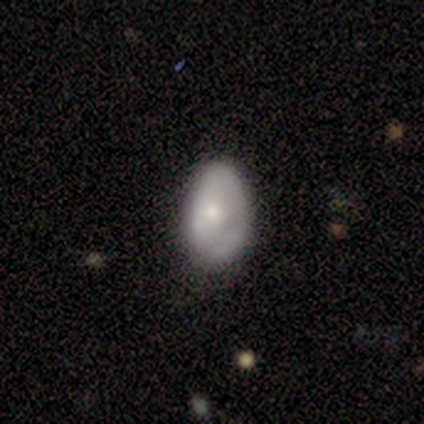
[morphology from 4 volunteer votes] Smooth or featured?
  - smooth: 75% *
  - star or artifact: 25%
  - featured or disk: 0%
How rounded?
  - in between: 67% *
  - round: 33%
  - cigar-shaped: 0%
Merging?
  - minor disturbance: 67% *
  - none: 33%
  - major disturbance: 0%
  - merger: 0%